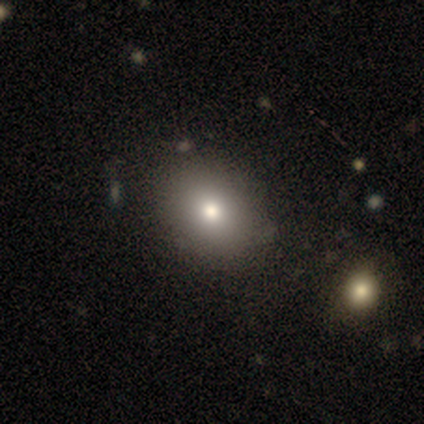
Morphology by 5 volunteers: smooth-or-featured: star or artifact: 60% | smooth: 20% | featured or disk: 20%